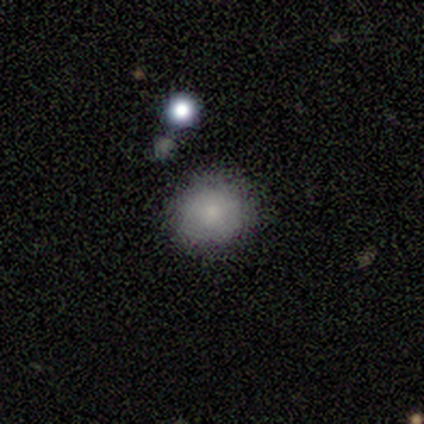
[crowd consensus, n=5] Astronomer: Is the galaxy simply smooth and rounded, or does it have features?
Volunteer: smooth — 100%.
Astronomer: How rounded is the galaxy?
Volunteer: round — 100%.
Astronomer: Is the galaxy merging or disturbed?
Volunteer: none — 100%.